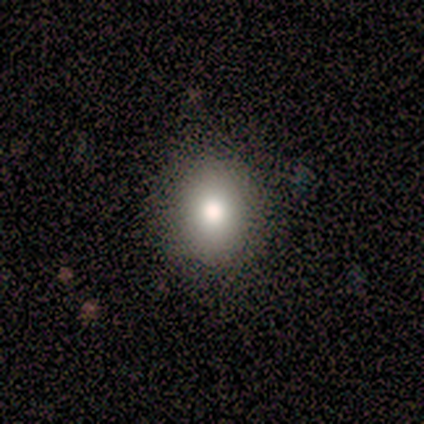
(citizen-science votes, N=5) smooth 100%, featured or disk 0%, star or artifact 0%. Down the decision tree: how rounded — round (100%); merging — none (80%).